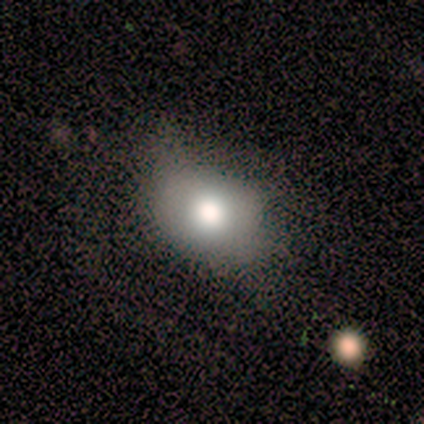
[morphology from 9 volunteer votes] Q: Smooth or featured?
A: smooth (67%); runner-up: featured or disk (22%)
Q: How rounded?
A: in between (83%); runner-up: round (17%)
Q: Merging?
A: minor disturbance (62%); runner-up: none (25%)